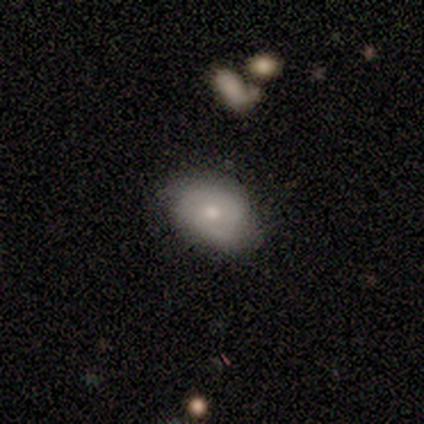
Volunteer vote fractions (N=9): This appears to be a featured or disk galaxy (67%) with no bar (80%), no spiral arms (60%) and a small central bulge (60%). Merging: none (78%).